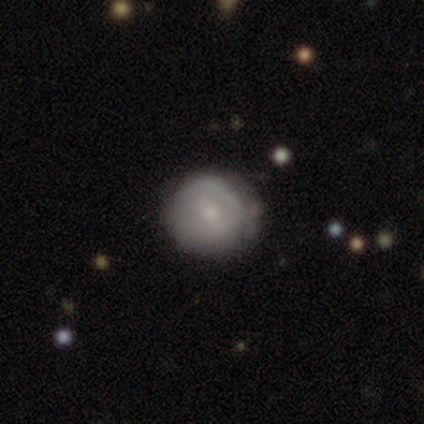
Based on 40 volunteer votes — This is possibly a featured or disk galaxy (57%). It is clearly not viewed edge-on (100%). Bar: likely no (70%). Spiral arm pattern: likely no (65%). Central bulge: likely small (70%). Merging: likely none (61%).